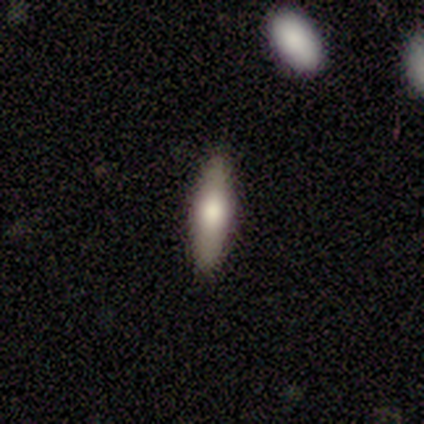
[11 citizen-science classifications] This appears to be a smooth galaxy with no disk features (73%) that is cigar-shaped (88%). Merging: none (100%).